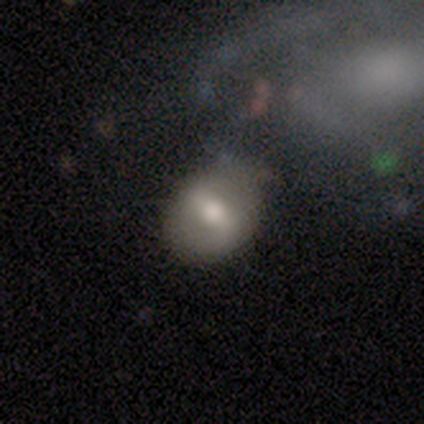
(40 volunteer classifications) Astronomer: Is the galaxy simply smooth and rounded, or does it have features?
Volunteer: featured or disk — 57% (runner-up: smooth, 42%).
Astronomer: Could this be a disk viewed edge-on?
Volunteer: no — 96%.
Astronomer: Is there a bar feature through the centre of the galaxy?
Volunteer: strong — 55% (runner-up: weak, 32%).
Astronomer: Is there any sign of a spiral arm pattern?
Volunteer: no — 64%.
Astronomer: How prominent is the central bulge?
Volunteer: moderate — 68%.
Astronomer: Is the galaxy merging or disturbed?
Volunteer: none — 38% (runner-up: minor disturbance, 25%).